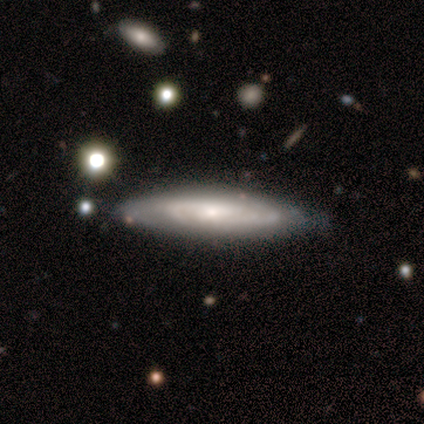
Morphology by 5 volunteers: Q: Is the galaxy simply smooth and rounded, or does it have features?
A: featured or disk — 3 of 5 (60%).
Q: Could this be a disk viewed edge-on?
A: no — 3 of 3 (100%).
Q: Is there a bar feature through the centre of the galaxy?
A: no — 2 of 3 (67%).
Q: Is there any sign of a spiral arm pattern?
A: yes — 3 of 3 (100%).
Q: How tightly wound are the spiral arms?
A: medium — 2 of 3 (67%).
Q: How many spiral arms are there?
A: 2 — 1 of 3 (33%, tied with 4 and can't tell).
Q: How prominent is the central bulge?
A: moderate — 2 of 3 (67%).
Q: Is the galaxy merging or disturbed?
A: none — 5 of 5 (100%).